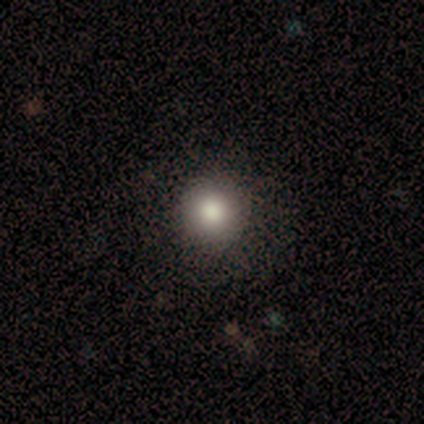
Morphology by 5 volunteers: Smooth or featured?
  - smooth: 100% *
  - featured or disk: 0%
  - star or artifact: 0%
How rounded?
  - round: 100% *
  - in between: 0%
  - cigar-shaped: 0%
Merging?
  - none: 80% *
  - minor disturbance: 20%
  - major disturbance: 0%
  - merger: 0%